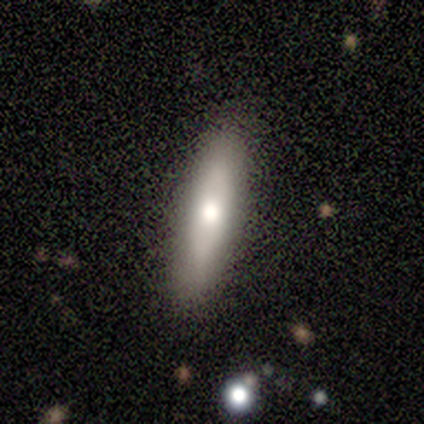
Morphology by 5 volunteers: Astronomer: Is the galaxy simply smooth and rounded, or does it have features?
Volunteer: featured or disk — 60% (runner-up: smooth, 40%).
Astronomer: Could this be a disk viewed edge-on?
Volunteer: no — 67%.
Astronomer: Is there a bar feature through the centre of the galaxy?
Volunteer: no — 100%.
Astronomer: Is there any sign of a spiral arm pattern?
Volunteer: no — 100%.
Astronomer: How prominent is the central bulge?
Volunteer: large — 50%, tied with moderate at 50%.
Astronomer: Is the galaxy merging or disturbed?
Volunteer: none — 80%.